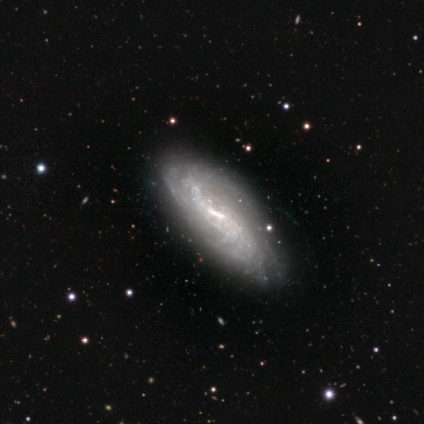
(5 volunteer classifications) Overall: featured or disk (80%). Edge-on disk: no (100%). Bar: weak (75%). Spiral arms: yes (100%). Spiral arm count: 2 (25%, tied with 4, more than 4 and can't tell). Spiral winding: tight (50%; medium 25%). Bulge size: moderate (50%; large 25%). Merging: none (100%).